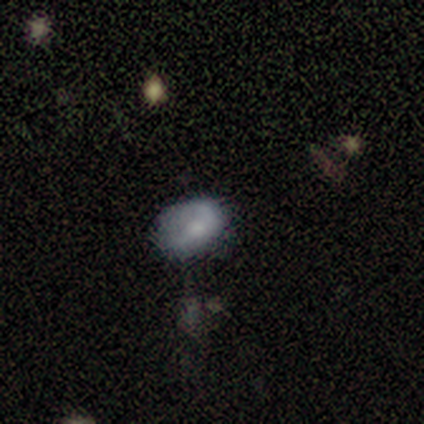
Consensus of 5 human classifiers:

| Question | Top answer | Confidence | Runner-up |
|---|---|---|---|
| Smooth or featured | smooth | 80% | star or artifact (20%) |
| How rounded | in between | 75% | round (25%) |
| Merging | none | 75% | merger (25%) |